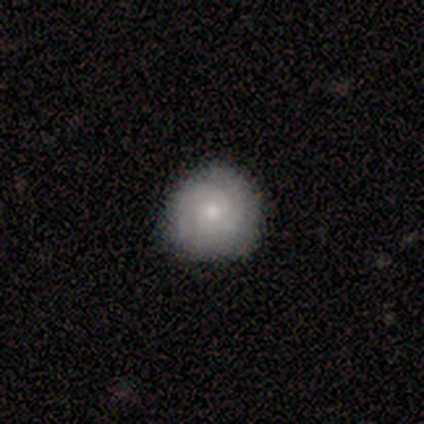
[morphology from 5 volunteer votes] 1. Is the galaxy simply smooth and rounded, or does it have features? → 80% featured or disk, 20% smooth, 0% star or artifact.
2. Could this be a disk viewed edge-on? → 100% no, 0% yes.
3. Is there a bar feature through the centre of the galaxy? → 100% no, 0% strong, 0% weak.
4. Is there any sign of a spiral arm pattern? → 100% yes, 0% no.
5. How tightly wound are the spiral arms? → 50% tight (tied), 50% medium (tied), 0% loose.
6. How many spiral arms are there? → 75% 2, 25% can't tell, 0% 1, 0% 3, 0% 4, 0% more than 4.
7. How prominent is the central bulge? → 50% moderate (tied), 50% small (tied), 0% dominant, 0% large, 0% none.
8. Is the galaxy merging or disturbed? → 100% none, 0% minor disturbance, 0% major disturbance, 0% merger.